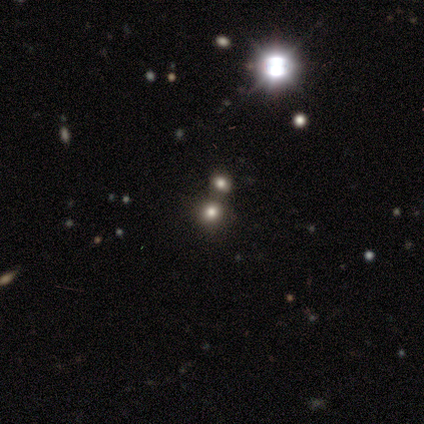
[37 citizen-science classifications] smooth-or-featured: smooth: 49% | star or artifact: 46% | featured or disk: 5%
  how-rounded: round: 67% | in between: 33% | cigar-shaped: 0%
  merging: none: 45% | merger: 40% | minor disturbance: 15% | major disturbance: 0%